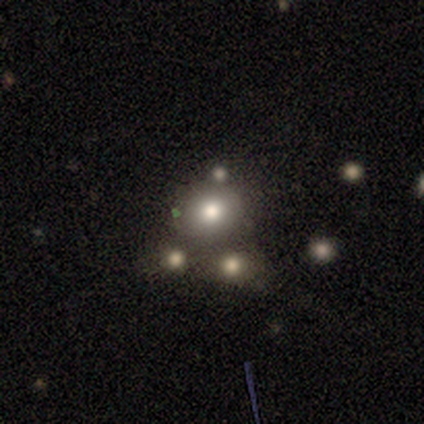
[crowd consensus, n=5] smooth_or_featured: smooth (p=0.60) [alt: featured or disk p=0.20]
how_rounded: round (p=0.67) [alt: in between p=0.33]
merging: none (p=0.75) [alt: merger p=0.25]